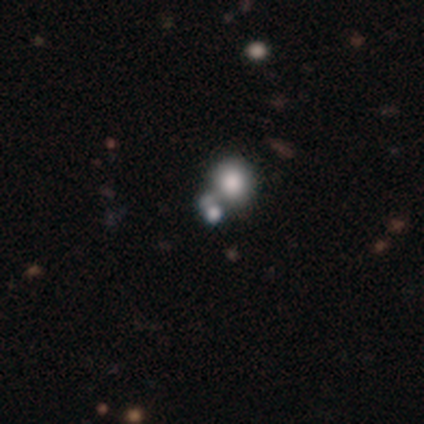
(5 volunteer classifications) smooth-or-featured: smooth: 40% (tied) | star or artifact: 40% (tied) | featured or disk: 20%
  how-rounded: round: 100% | in between: 0% | cigar-shaped: 0%
  merging: merger: 67% | minor disturbance: 33% | none: 0% | major disturbance: 0%